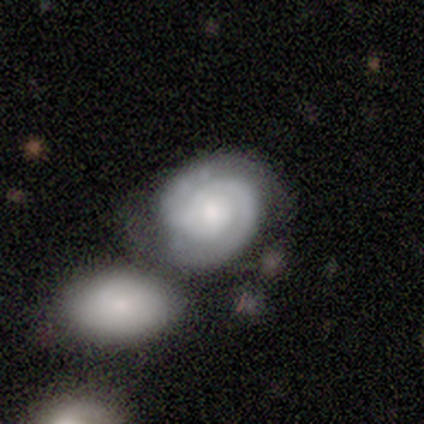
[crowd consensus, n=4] Volunteers were most divided on "merging": none: 50%, minor disturbance: 25%, merger: 25%, major disturbance: 0%. More confident: edge-on disk — no (100%); bar — no (100%); spiral arms — yes (100%); spiral winding — tight (100%); smooth or featured — featured or disk (75%); spiral arm count — 2 (67%); bulge size — small (67%).